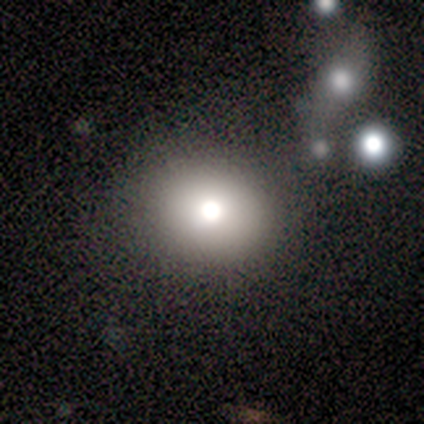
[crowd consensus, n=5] smooth 60%, star or artifact 40%, featured or disk 0%. Down the decision tree: how rounded — round (67%); merging — none (100%).